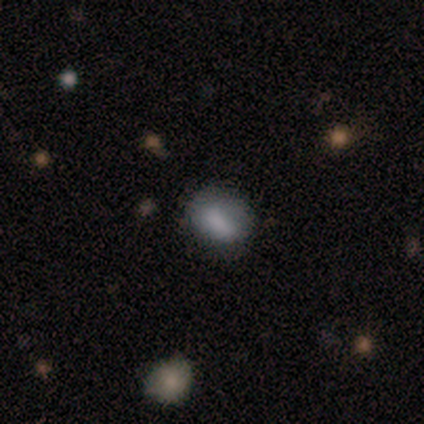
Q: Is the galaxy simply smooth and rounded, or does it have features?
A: smooth — 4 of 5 (80%).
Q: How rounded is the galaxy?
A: in between — 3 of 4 (75%).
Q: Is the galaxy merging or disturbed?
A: none — 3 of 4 (75%).